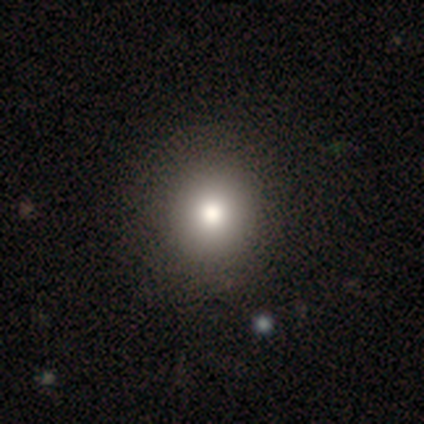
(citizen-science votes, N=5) Smooth or featured?
  - smooth: 80% *
  - star or artifact: 20%
  - featured or disk: 0%
How rounded?
  - round: 100% *
  - in between: 0%
  - cigar-shaped: 0%
Merging?
  - none: 100% *
  - minor disturbance: 0%
  - major disturbance: 0%
  - merger: 0%